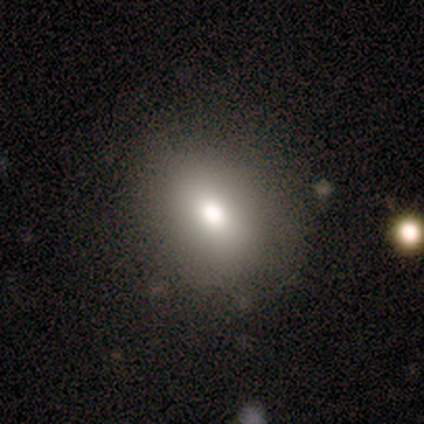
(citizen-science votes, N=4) Volunteers were most divided on "how rounded": in between: 67%, round: 33%, cigar-shaped: 0%. More confident: smooth or featured — smooth (75%); merging — none (67%).